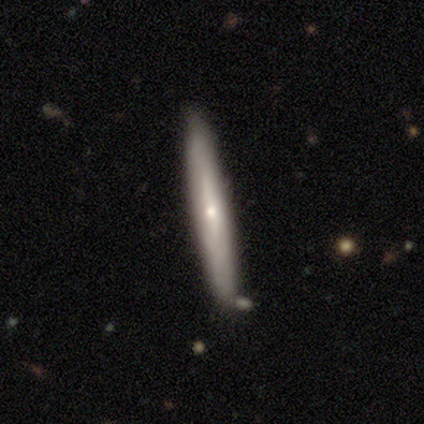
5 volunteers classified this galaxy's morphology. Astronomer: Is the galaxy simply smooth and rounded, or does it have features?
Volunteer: smooth — 40%, tied with featured or disk at 40%.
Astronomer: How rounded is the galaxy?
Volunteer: cigar-shaped — 100%.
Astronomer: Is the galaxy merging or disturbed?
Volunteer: none — 100%.